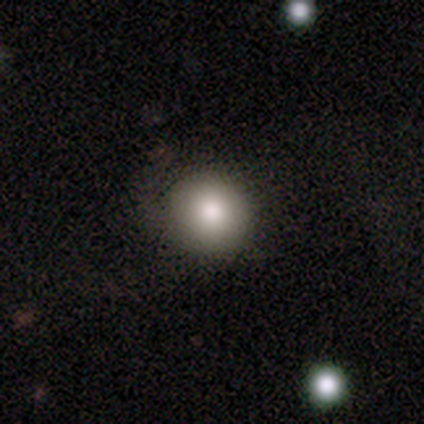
Q: Smooth or featured?
A: smooth (79%); runner-up: featured or disk (13%)
Q: How rounded?
A: round (93%); runner-up: in between (7%)
Q: Merging?
A: none (83%); runner-up: minor disturbance (11%)